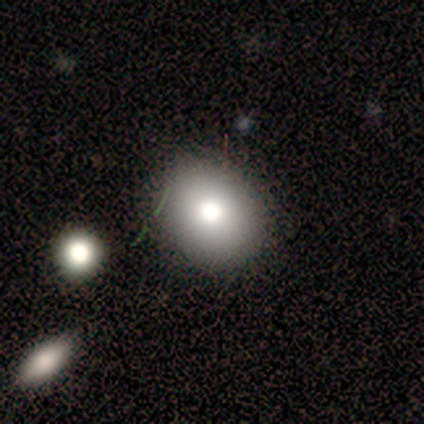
Morphology: type=smooth (71%); roundness=round (59%); merging=none (82%).